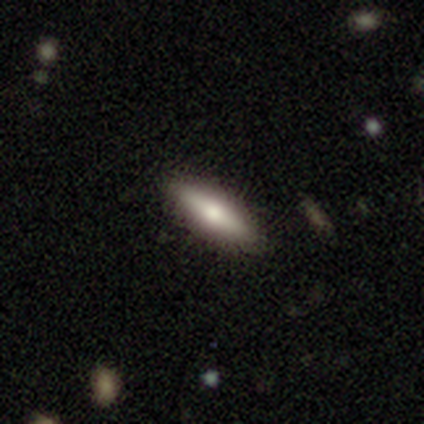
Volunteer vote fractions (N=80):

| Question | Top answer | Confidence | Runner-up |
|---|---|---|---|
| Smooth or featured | smooth | 65% | featured or disk (32%) |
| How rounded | in between | 50% | tied: cigar-shaped (50%) |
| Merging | none | 49% | minor disturbance (3%) |